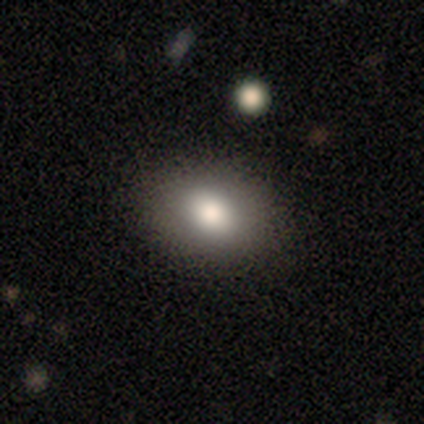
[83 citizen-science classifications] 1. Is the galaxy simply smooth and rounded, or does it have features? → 82% smooth, 10% star or artifact, 8% featured or disk.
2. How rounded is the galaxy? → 76% in between, 24% round, 0% cigar-shaped.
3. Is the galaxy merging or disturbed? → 92% none, 7% minor disturbance, 1% merger, 0% major disturbance.